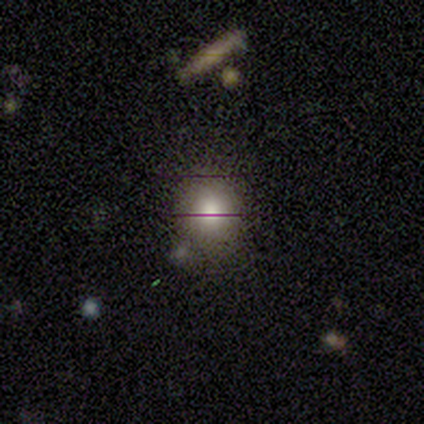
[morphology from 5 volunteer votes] A smooth galaxy with no disk features (80%) that is round (100%).

Vote fractions:
- Smooth or featured? smooth: 80% / star or artifact: 20% / featured or disk: 0%
- How rounded? round: 100% / in between: 0% / cigar-shaped: 0%
- Merging? none: 50% (tied) / minor disturbance: 50% (tied) / major disturbance: 0% / merger: 0%